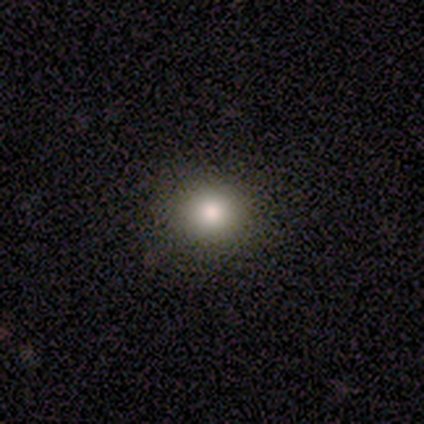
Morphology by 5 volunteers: This is clearly a smooth galaxy (100%). How rounded: clearly round (80%). Merging: clearly none (100%).